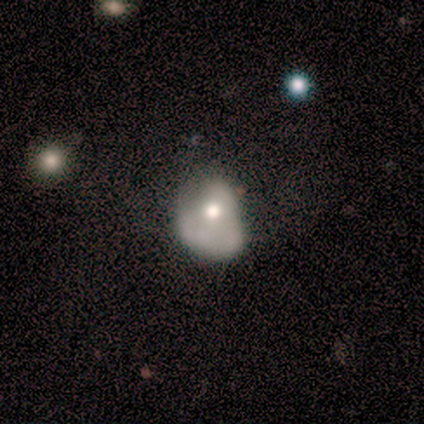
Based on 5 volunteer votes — smooth 40% (tied), featured or disk 40% (tied), star or artifact 20%. Down the decision tree: how rounded — round (50%, tied with in between); merging — none (50%).